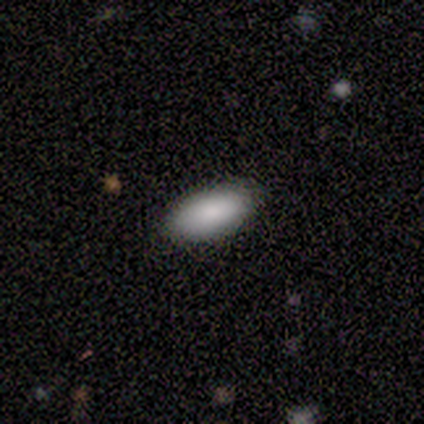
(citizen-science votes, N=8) This appears to be a smooth galaxy with no disk features (88%) that is in between round and cigar-shaped (86%). Merging: none (100%).